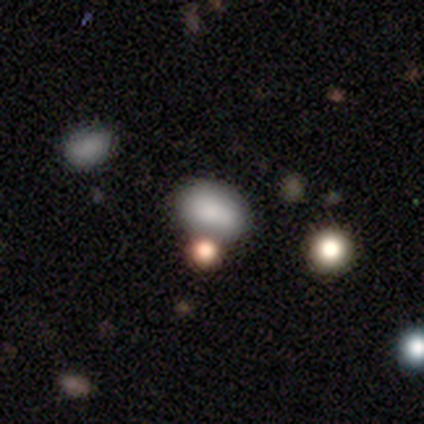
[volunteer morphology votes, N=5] Smooth or featured? smooth (60%)
How rounded? in between (67%)
Merging? none (33%, tied with major disturbance and merger)